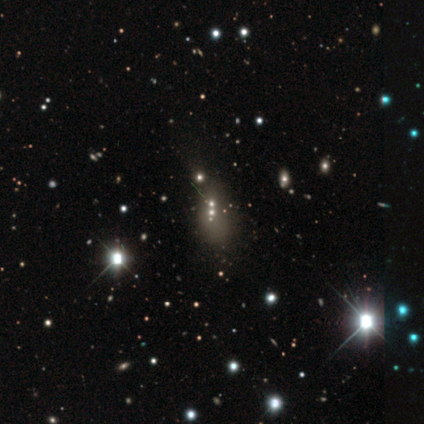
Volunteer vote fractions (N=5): A star or artifact, not a galaxy (60%).

Vote fractions:
- Smooth or featured? star or artifact: 60% / featured or disk: 40% / smooth: 0%